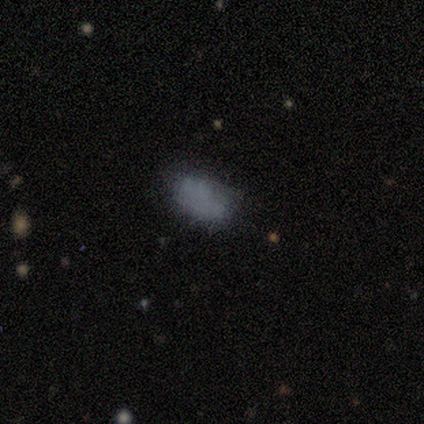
Smooth or featured? smooth (80%)
How rounded? in between (88%)
Merging? none (50%)